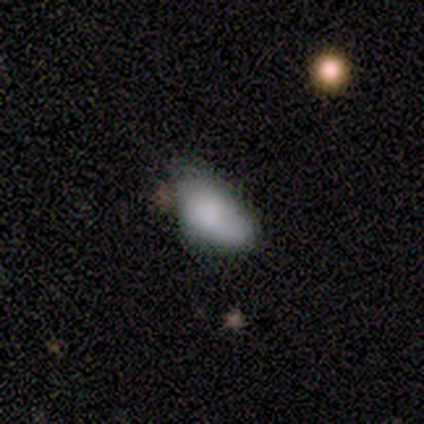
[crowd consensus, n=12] Smooth or featured? 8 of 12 (67%) said smooth. How rounded? 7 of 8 (88%) said in between. Merging? 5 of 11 (45%) said none.